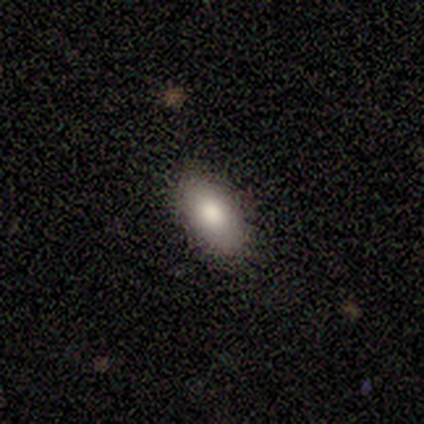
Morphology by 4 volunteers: Overall: smooth (100%). How rounded: in between (75%). Merging: none (100%).